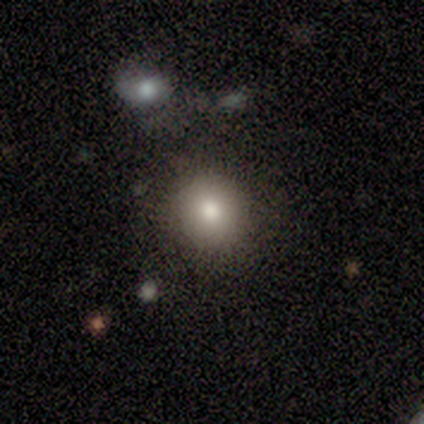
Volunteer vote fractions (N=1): This is clearly a star or artifact rather than a galaxy (100%).